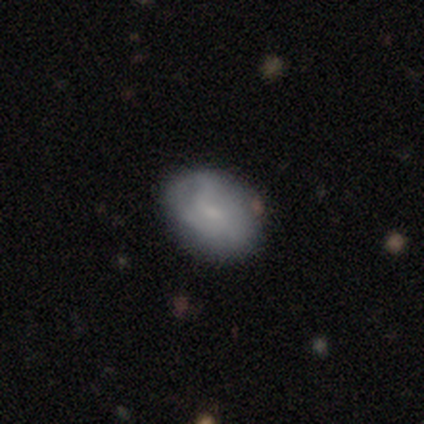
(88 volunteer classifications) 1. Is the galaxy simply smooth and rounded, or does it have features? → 59% smooth, 31% featured or disk, 10% star or artifact.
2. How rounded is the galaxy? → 75% in between, 25% round, 0% cigar-shaped.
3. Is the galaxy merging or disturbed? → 75% none, 20% minor disturbance, 5% major disturbance, 0% merger.